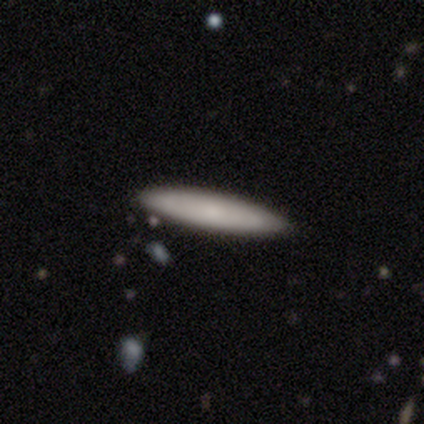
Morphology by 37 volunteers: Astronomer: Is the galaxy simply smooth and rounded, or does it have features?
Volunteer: smooth — 92%.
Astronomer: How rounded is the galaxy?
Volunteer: cigar-shaped — 94%.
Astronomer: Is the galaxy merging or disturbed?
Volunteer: none — 89%.